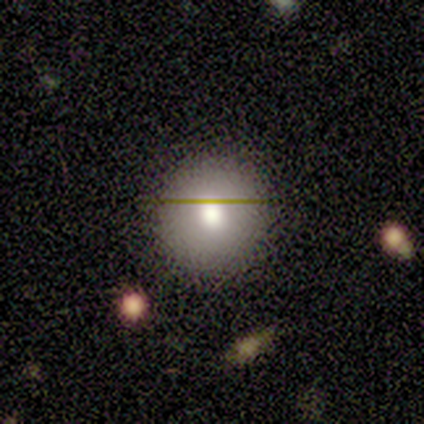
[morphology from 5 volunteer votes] Overall: smooth (80%). How rounded: round (100%). Merging: none (80%).